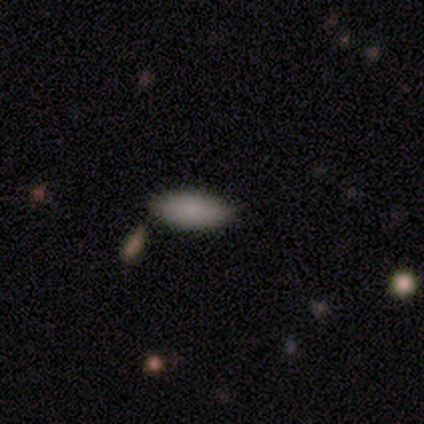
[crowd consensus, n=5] Smooth or featured? 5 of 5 (100%) said smooth. How rounded? 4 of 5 (80%) said in between. Merging? 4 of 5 (80%) said none.